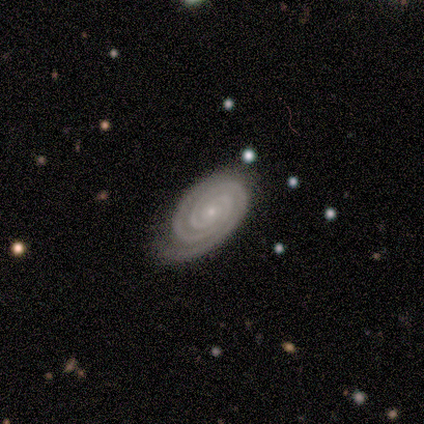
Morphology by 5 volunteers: Volunteers were most divided on "bar": no: 75%, weak: 25%, strong: 0%. More confident: smooth or featured — featured or disk (100%); spiral arms — yes (100%); spiral arm count — 2 (100%); bulge size — small (100%); merging — none (100%); edge-on disk — no (80%); spiral winding — tight (75%).